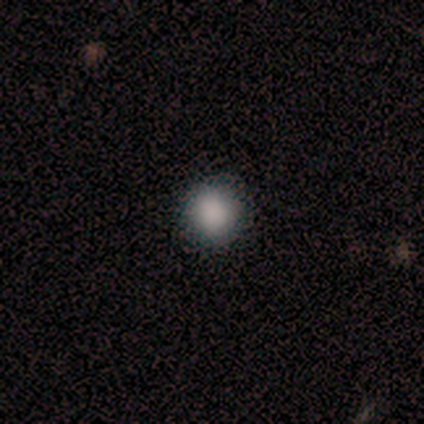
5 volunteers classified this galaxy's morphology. This is clearly a smooth galaxy (100%). How rounded: clearly round (80%). Merging: clearly none (100%).